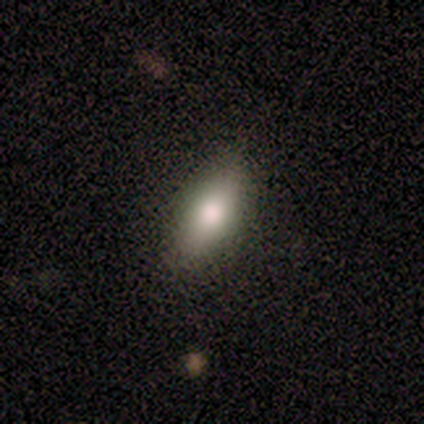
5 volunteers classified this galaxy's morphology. A smooth galaxy with no disk features (100%) that is in between round and cigar-shaped (100%).

Vote fractions:
- Smooth or featured? smooth: 100% / featured or disk: 0% / star or artifact: 0%
- How rounded? in between: 100% / round: 0% / cigar-shaped: 0%
- Merging? none: 80% / minor disturbance: 20% / major disturbance: 0% / merger: 0%